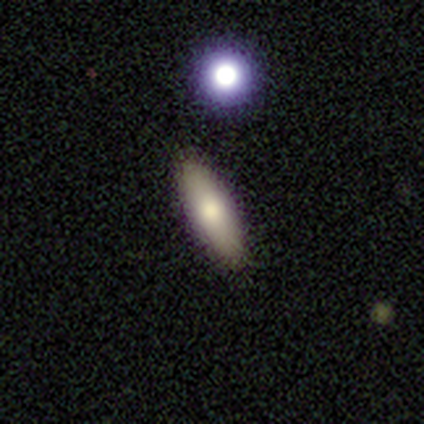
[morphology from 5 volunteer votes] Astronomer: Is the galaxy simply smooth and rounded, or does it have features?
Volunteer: smooth — 60%.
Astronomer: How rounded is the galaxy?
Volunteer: in between — 100%.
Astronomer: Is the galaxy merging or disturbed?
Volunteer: none — 100%.